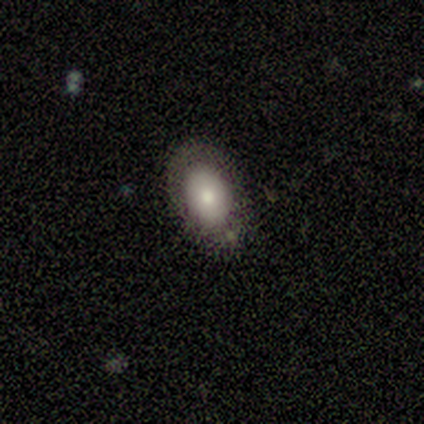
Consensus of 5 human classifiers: Q: Smooth or featured?
A: featured or disk (60%); runner-up: smooth (40%)
Q: Edge-on disk?
A: no (67%); runner-up: yes (33%)
Q: Bar?
A: no (100%)
Q: Spiral arms?
A: no (100%)
Q: Bulge size?
A: moderate (50%); tied with: small (50%)
Q: Merging?
A: none (60%); runner-up: minor disturbance (40%)